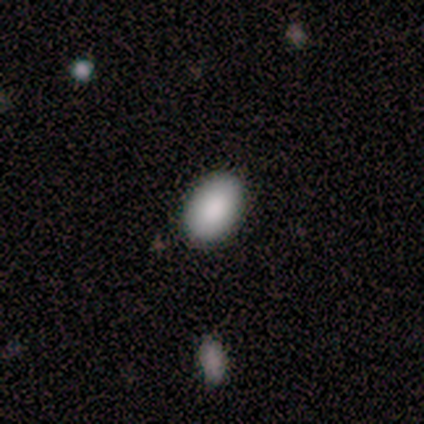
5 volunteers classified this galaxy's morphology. Overall: smooth (80%). How rounded: in between (75%). Merging: none (100%).